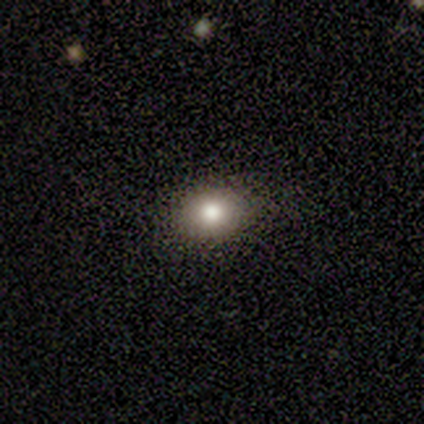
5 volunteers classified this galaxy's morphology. type=smooth (80%); roundness=round (50%, tied with in between); merging=none (50%).